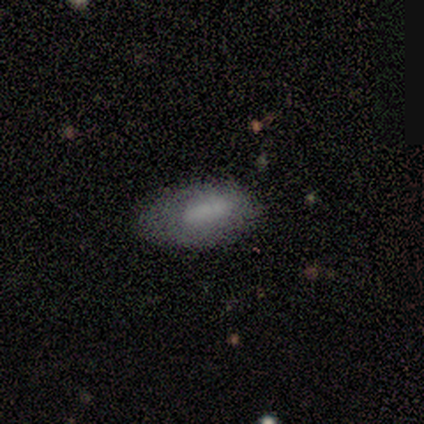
Smooth or featured? smooth (80%)
How rounded? in between (100%)
Merging? none (80%)